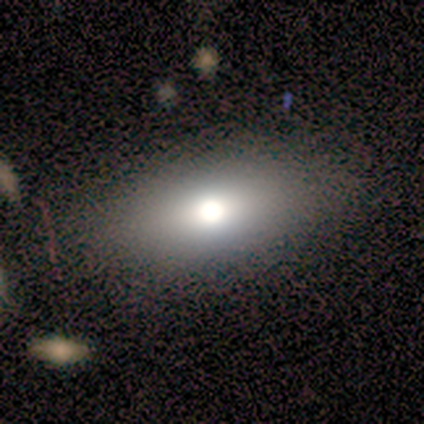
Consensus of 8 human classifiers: Volunteers were most divided on "smooth or featured": smooth: 50%, featured or disk: 25%, star or artifact: 25%. More confident: merging — none (83%); how rounded — in between (75%).